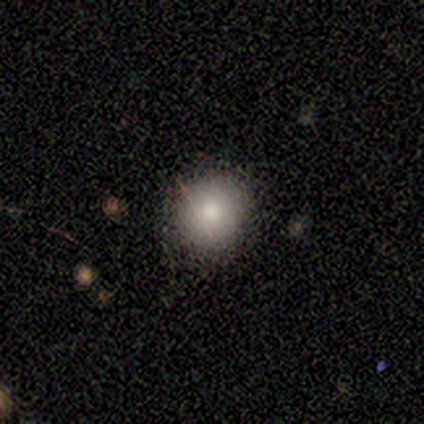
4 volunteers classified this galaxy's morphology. This appears to be a smooth galaxy with no disk features (50%, tied with featured or disk) that is round (100%). Merging: none (75%).